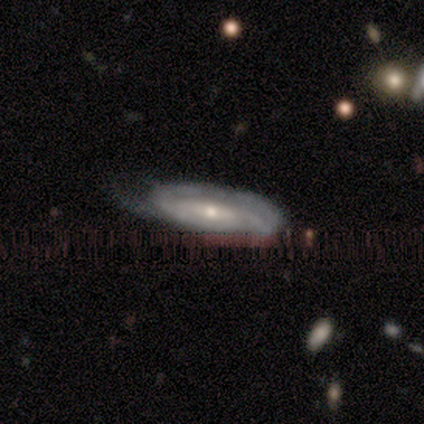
Morphology: type=featured or disk (100%); edge-on=no (100%); bar=strong (60%); spiral arms=yes (80%); winding=tight (100%); arm count=can't tell (50%); bulge=small (80%); merging=minor disturbance (80%).